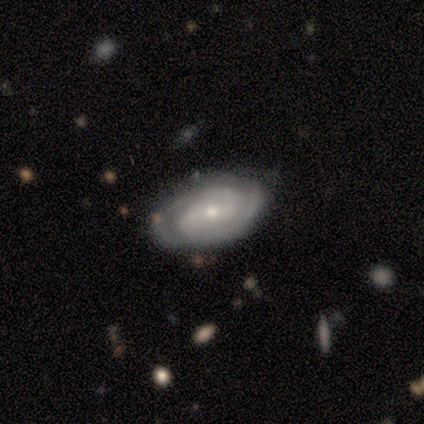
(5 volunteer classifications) Smooth or featured? 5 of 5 (100%) said featured or disk. Edge-on disk? 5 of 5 (100%) said no. Bar? 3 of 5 (60%) said no. Spiral arms? 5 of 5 (100%) said yes. Spiral winding? 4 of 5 (80%) said tight. Spiral arm count? 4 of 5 (80%) said 2. Bulge size? 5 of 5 (100%) said small. Merging? 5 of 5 (100%) said none.